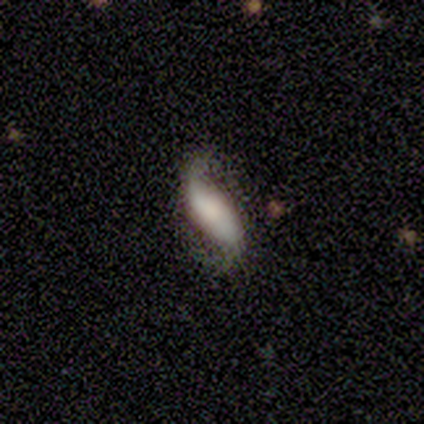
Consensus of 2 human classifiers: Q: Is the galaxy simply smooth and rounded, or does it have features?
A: featured or disk — 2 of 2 (100%).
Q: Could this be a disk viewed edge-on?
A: yes — 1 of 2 (50%, tied with no).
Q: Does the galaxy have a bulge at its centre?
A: boxy — 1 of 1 (100%).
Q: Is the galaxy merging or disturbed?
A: none — 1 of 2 (50%, tied with major disturbance).